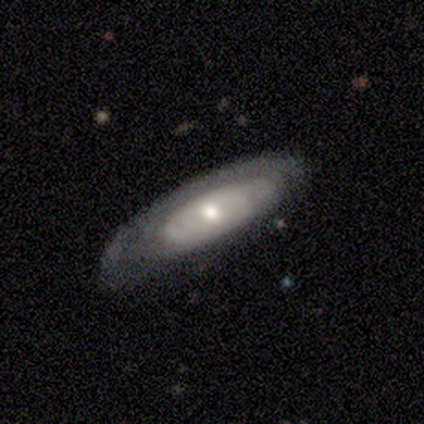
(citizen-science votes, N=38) Smooth or featured: featured or disk — 58% (smooth — 37%)
Edge-on disk: no — 82% (yes — 18%)
Bar: no — 83% (weak — 17%)
Spiral arms: no — 56% (yes — 44%)
Bulge size: moderate — 61% (small — 39%)
Merging: none — 50% (minor disturbance — 39%)